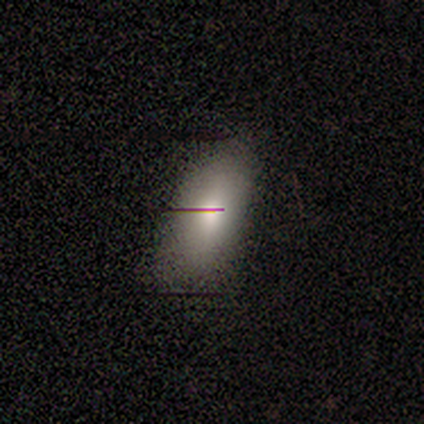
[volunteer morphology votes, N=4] Q: Smooth or featured?
A: featured or disk (75%); runner-up: smooth (25%)
Q: Edge-on disk?
A: yes (67%); runner-up: no (33%)
Q: Edge-on bulge?
A: none (50%); tied with: rounded (50%)
Q: Merging?
A: none (50%); tied with: major disturbance (50%)